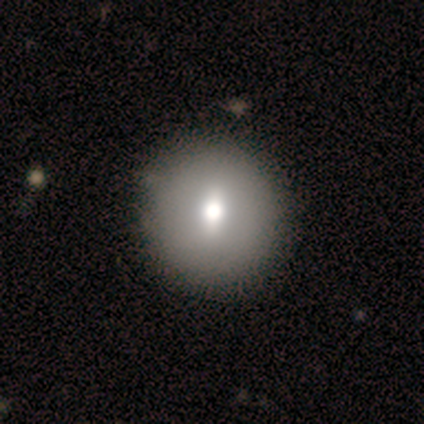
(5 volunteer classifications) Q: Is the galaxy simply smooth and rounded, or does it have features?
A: featured or disk — 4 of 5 (80%).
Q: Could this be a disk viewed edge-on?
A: no — 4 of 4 (100%).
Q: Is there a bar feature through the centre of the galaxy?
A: weak — 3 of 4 (75%).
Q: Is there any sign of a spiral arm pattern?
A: no — 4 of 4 (100%).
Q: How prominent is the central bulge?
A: moderate — 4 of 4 (100%).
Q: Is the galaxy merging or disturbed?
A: none — 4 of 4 (100%).